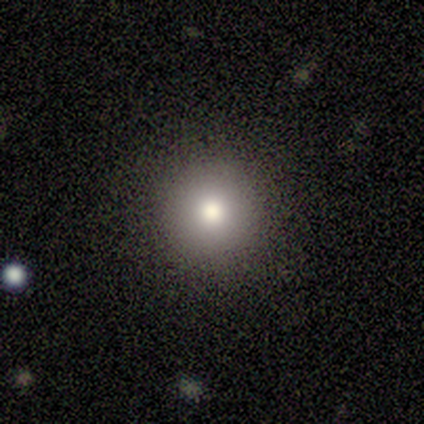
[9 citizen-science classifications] smooth_or_featured: smooth (p=0.67) [alt: featured or disk p=0.22]
how_rounded: round (p=1.00)
merging: none (p=1.00)